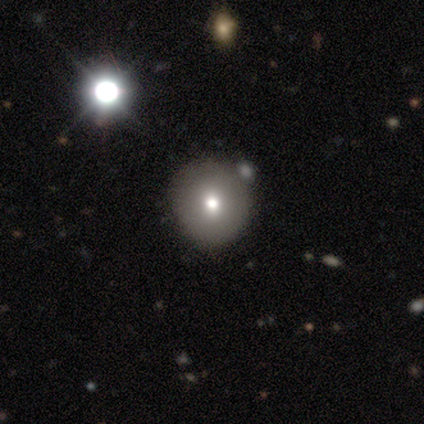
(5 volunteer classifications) This is clearly a smooth galaxy (80%). How rounded: clearly round (100%). Merging: clearly none (80%).